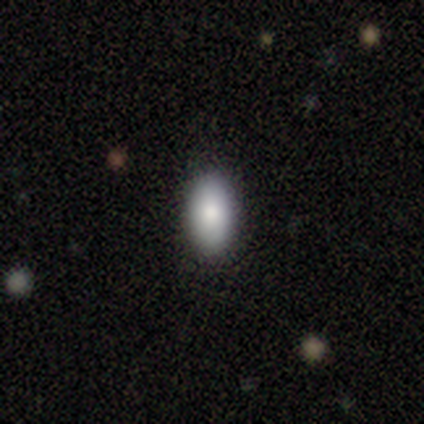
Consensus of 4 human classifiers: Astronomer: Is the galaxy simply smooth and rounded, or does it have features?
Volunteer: smooth — 100%.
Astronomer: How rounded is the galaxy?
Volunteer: in between — 100%.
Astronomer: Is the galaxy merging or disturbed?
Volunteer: none — 100%.